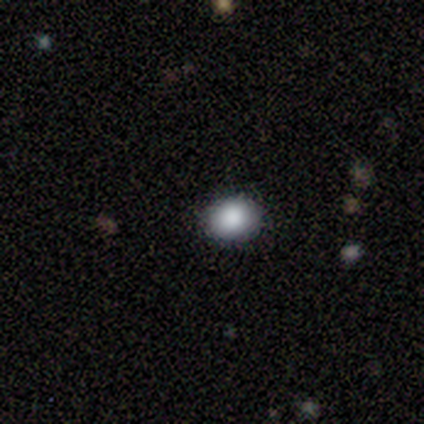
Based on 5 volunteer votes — This is clearly a smooth galaxy (100%). How rounded: likely in between (60%). Merging: clearly none (80%).